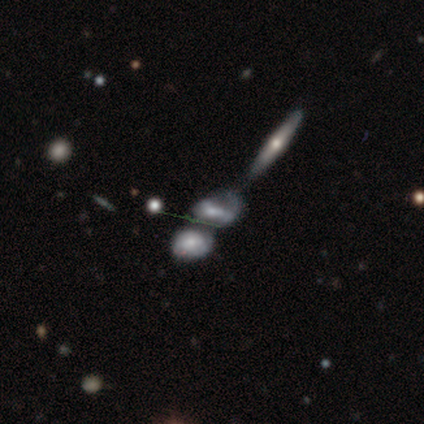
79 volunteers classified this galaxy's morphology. This appears to be a featured or disk galaxy (58%) with no bar (47%), 2 (39%) medium (44%) spiral arms (53%) and a moderate central bulge (47%). Merging: merger (49%).